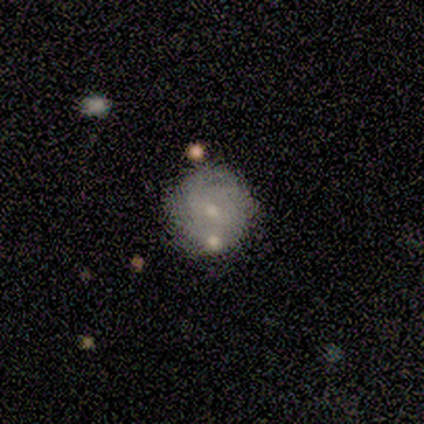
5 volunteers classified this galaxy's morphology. type=smooth (80%); roundness=round (75%); merging=none (60%).